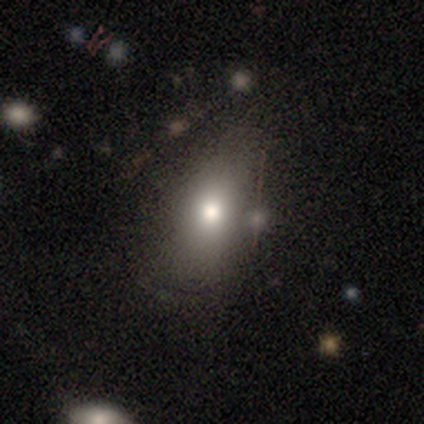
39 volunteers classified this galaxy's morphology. Smooth or featured?
  - smooth: 77% *
  - star or artifact: 13%
  - featured or disk: 10%
How rounded?
  - in between: 73% *
  - round: 17%
  - cigar-shaped: 10%
Merging?
  - none: 62% *
  - major disturbance: 18%
  - minor disturbance: 12%
  - merger: 9%